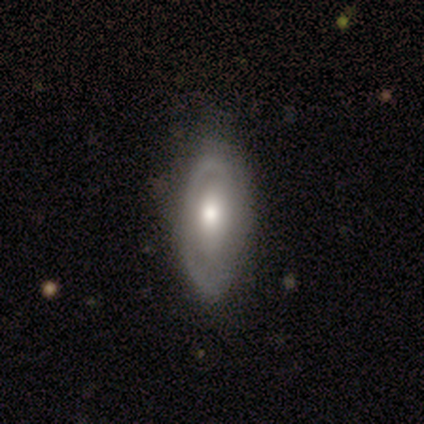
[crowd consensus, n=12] Overall: smooth (50%, tied with featured or disk). How rounded: in between (100%). Merging: none (75%).